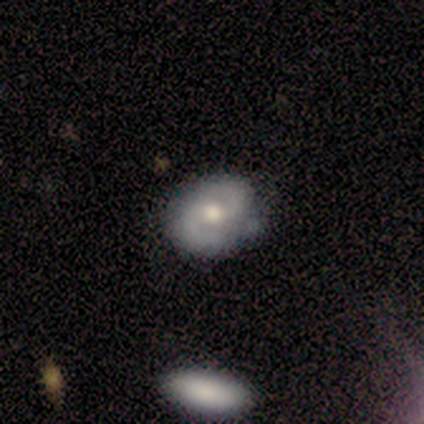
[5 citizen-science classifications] Overall: featured or disk (60%; smooth 20%). Edge-on disk: no (100%). Bar: no (100%). Spiral arms: yes (100%). Spiral arm count: 2 (100%). Spiral winding: medium (67%; tight 33%). Bulge size: moderate (100%). Merging: none (100%).